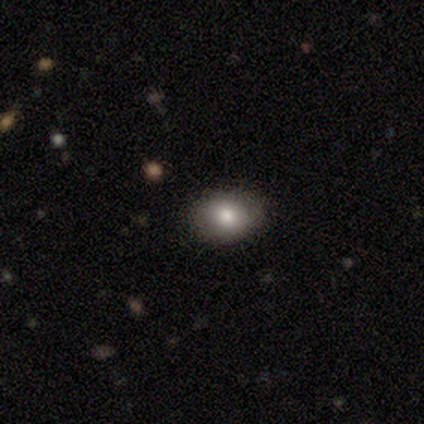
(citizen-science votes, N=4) Smooth or featured: smooth — 100%
How rounded: in between — 75% (round — 25%)
Merging: none — 100%